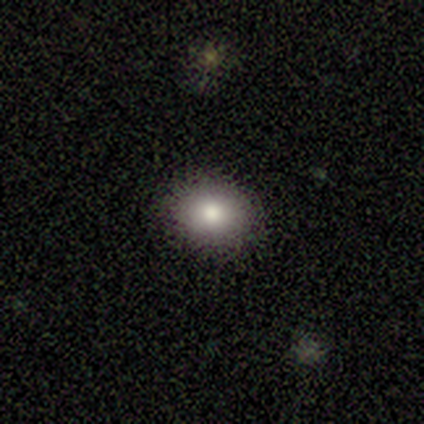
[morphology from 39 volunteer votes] A smooth galaxy with no disk features (77%) that is round (53%).

Vote fractions:
- Smooth or featured? smooth: 77% / featured or disk: 13% / star or artifact: 10%
- How rounded? round: 53% / in between: 47% / cigar-shaped: 0%
- Merging? none: 91% / minor disturbance: 6% / major disturbance: 3% / merger: 0%